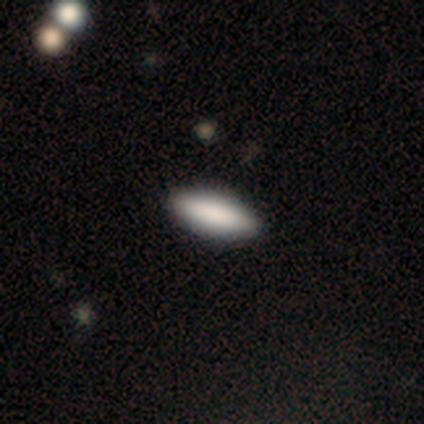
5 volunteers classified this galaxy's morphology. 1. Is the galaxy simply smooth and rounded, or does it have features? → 80% smooth, 20% star or artifact, 0% featured or disk.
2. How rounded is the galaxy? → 75% in between, 25% cigar-shaped, 0% round.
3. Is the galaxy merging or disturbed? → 100% none, 0% minor disturbance, 0% major disturbance, 0% merger.